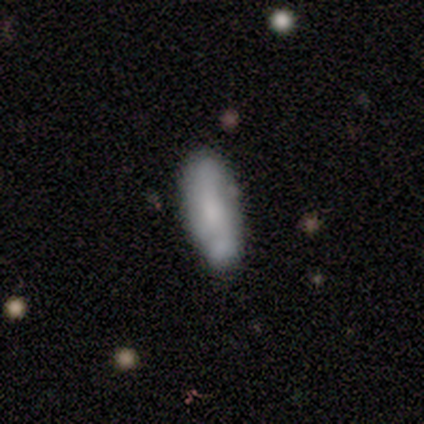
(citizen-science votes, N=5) Smooth or featured: star or artifact — 60% (featured or disk — 40%)